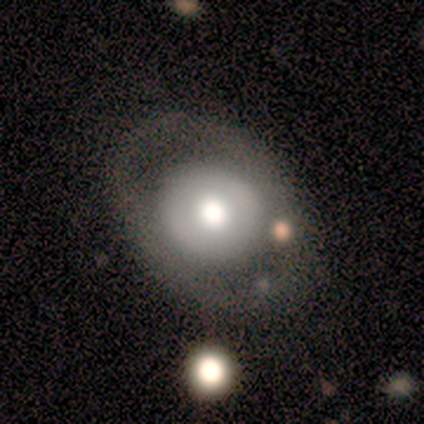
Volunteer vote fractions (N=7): Volunteers were most divided on "smooth or featured": featured or disk: 57%, smooth: 43%, star or artifact: 0%. More confident: edge-on disk — no (100%); spiral arms — no (100%); bar — no (75%); bulge size — large (75%); merging — none (71%).